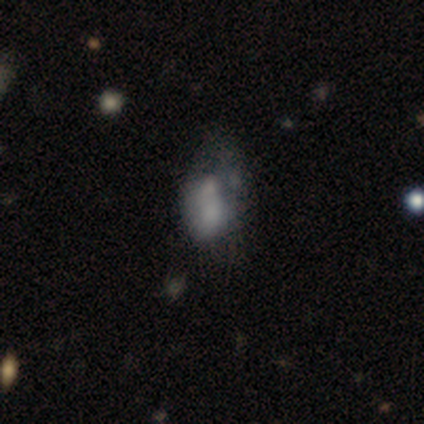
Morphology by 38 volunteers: Volunteers were most divided on "merging": major disturbance: 33%, none: 27%, minor disturbance: 21%, merger: 18%. Remaining: bar — no (94%); edge-on disk — no (89%); spiral arms — no (88%); smooth or featured — featured or disk (47%); bulge size — none (31%).